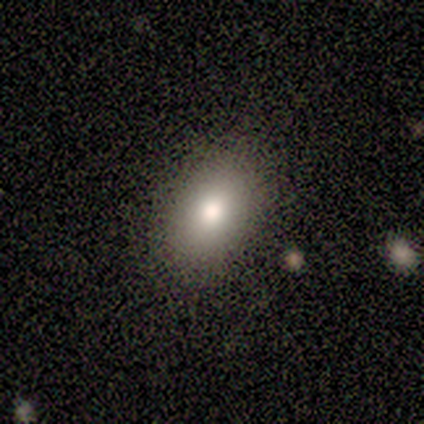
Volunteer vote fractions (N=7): Overall: smooth (86%). How rounded: in between (100%). Merging: none (83%).